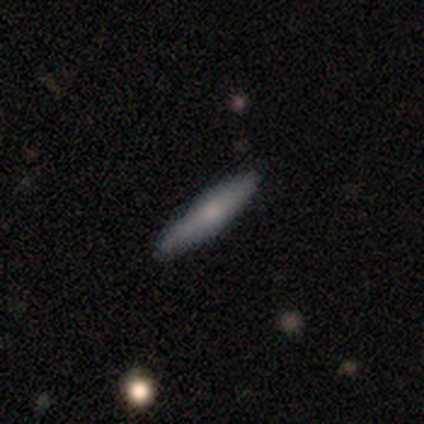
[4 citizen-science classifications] Overall: smooth (75%). How rounded: cigar-shaped (100%). Merging: none (100%).